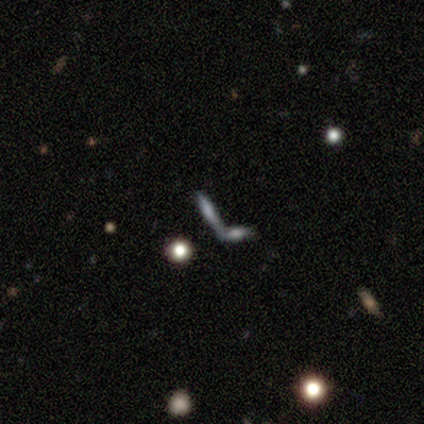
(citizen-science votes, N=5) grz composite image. It shows a smooth galaxy with no disk features (60%) that is cigar-shaped (100%). Merging: none (60%).